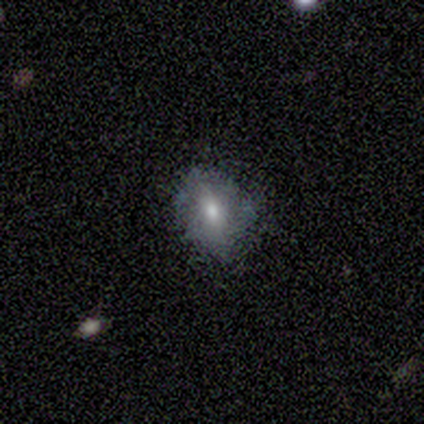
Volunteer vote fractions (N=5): This appears to be a smooth galaxy with no disk features (80%) that is in between round and cigar-shaped (100%). Merging: minor disturbance (60%).